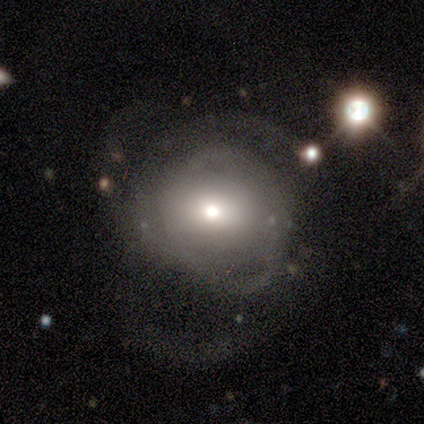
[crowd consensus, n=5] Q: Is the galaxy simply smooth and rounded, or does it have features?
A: smooth — 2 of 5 (40%, tied with featured or disk).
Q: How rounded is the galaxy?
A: round — 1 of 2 (50%, tied with in between).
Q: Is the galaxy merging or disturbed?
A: major disturbance — 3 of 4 (75%).